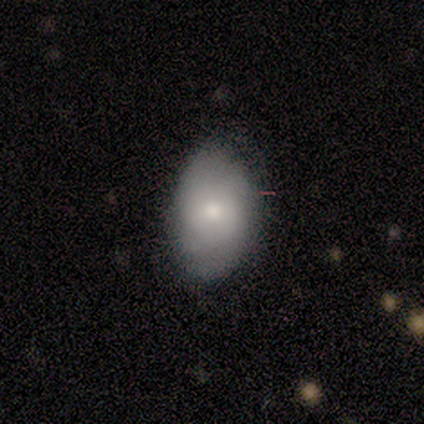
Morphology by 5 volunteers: A smooth galaxy with no disk features (60%) that is in between round and cigar-shaped (100%). Merging: minor disturbance (80%).